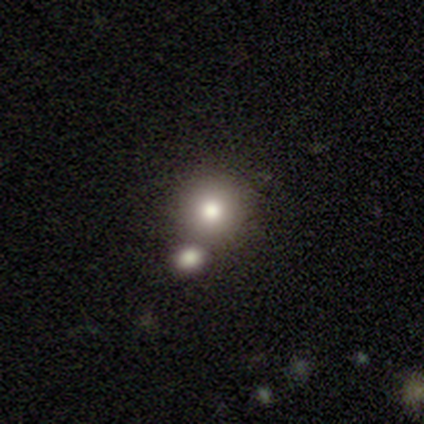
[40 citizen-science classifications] This is likely a smooth galaxy (75%). How rounded: clearly round (87%). Merging: clearly none (82%).